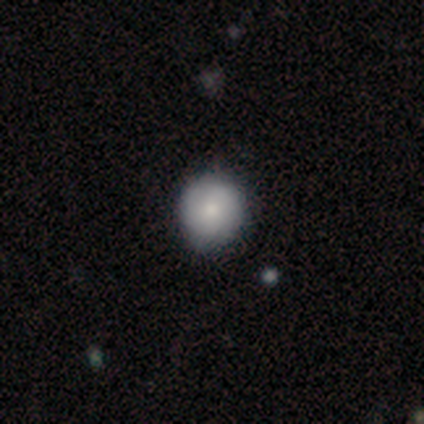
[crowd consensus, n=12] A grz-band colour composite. It shows a smooth galaxy with no disk features (83%) that is round (100%). Merging: none (83%).